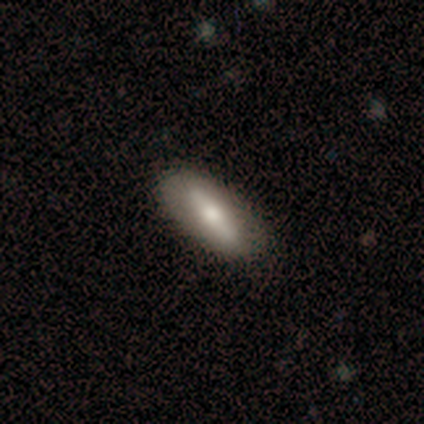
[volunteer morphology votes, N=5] type=smooth (40%, tied with star or artifact); roundness=in between (100%); merging=none (67%).